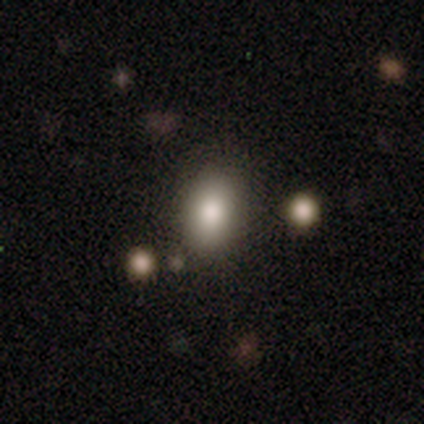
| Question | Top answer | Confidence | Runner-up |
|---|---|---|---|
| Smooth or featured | smooth | 100% | — |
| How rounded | in between | 100% | — |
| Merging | none | 100% | — |